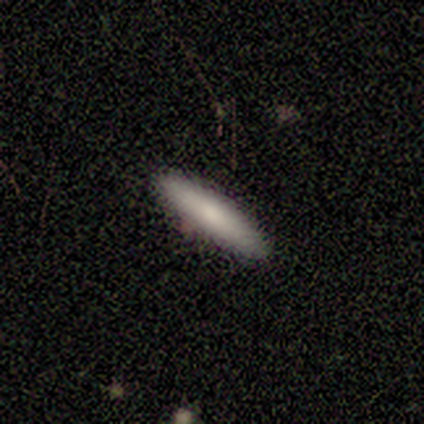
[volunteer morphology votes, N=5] Smooth or featured: smooth — 100%
How rounded: cigar-shaped — 100%
Merging: none — 100%